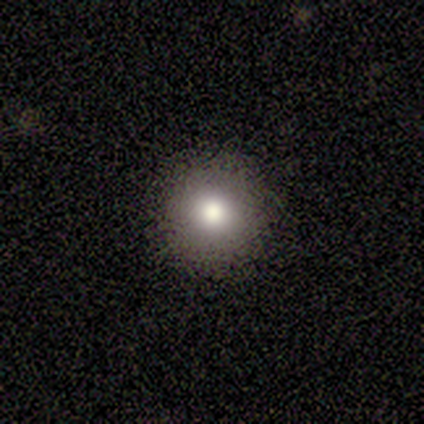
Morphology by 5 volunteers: Consensus on every question: smooth or featured — smooth (100%); how rounded — round (100%); merging — none (100%).